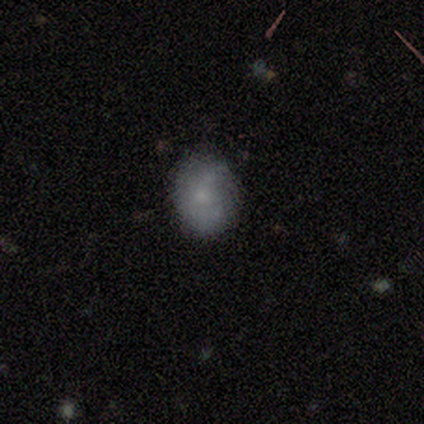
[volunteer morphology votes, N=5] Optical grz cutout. It shows a smooth galaxy with no disk features (60%) that is in between round and cigar-shaped (67%). Merging: none (80%).